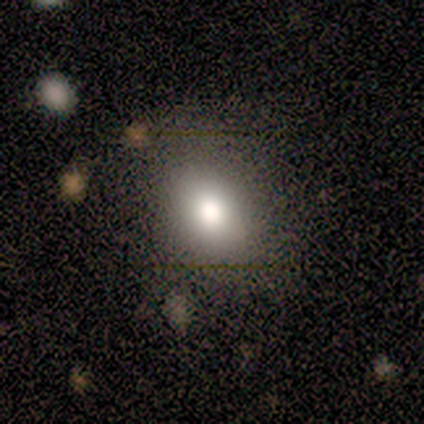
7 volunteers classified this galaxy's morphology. A smooth galaxy with no disk features (100%) that is in between round and cigar-shaped (86%).

Vote fractions:
- Smooth or featured? smooth: 100% / featured or disk: 0% / star or artifact: 0%
- How rounded? in between: 86% / round: 14% / cigar-shaped: 0%
- Merging? none: 86% / major disturbance: 14% / minor disturbance: 0% / merger: 0%